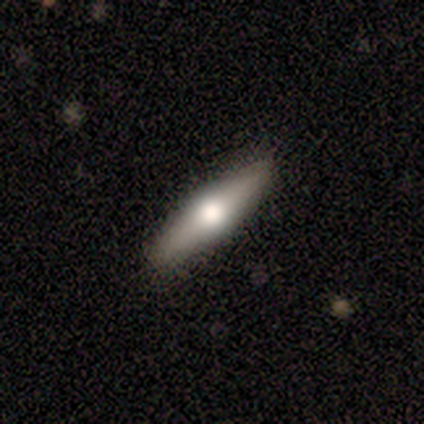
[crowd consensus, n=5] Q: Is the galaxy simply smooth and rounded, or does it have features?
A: featured or disk — 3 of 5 (60%).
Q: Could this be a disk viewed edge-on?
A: yes — 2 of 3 (67%).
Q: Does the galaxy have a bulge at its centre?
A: rounded — 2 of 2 (100%).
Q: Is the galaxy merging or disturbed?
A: none — 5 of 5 (100%).